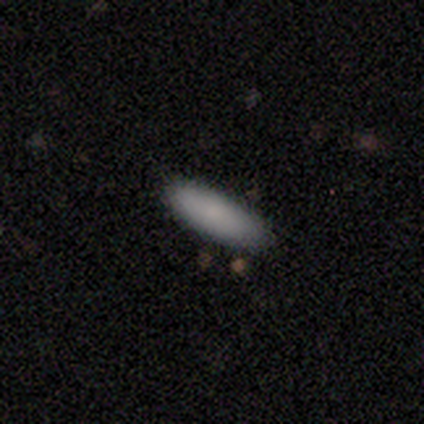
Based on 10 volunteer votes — Morphology: type=smooth (70%); roundness=in between (57%); merging=none (50%).